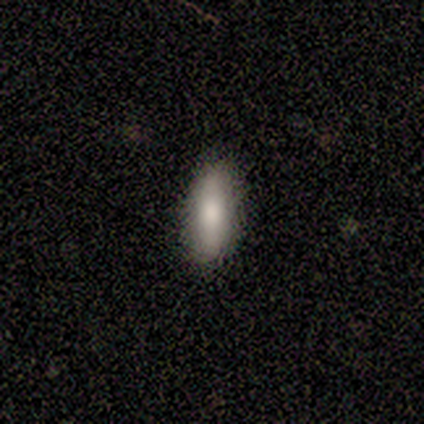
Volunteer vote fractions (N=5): smooth_or_featured: smooth (p=0.80) [alt: featured or disk p=0.20]
how_rounded: in between (p=0.50) [tied with: cigar-shaped p=0.50]
merging: none (p=1.00)